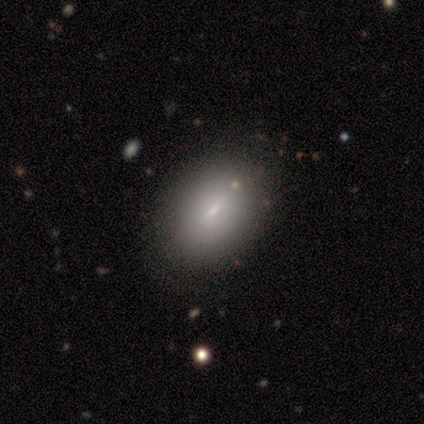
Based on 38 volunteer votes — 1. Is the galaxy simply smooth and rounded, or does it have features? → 53% smooth, 34% featured or disk, 13% star or artifact.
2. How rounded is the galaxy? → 85% in between, 15% round, 0% cigar-shaped.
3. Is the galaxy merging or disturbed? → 82% none, 6% minor disturbance, 3% major disturbance, 0% merger.